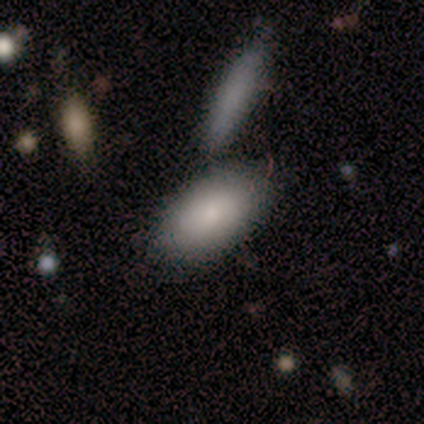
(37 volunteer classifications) This appears to be a smooth galaxy with no disk features (100%) that is in between round and cigar-shaped (97%). Merging: none (65%).